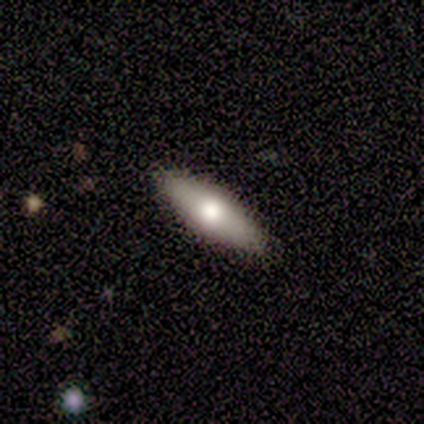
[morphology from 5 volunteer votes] This appears to be a featured or disk galaxy (60%) viewed edge-on (100%) with a rounded central bulge (100%). Merging: none (60%).